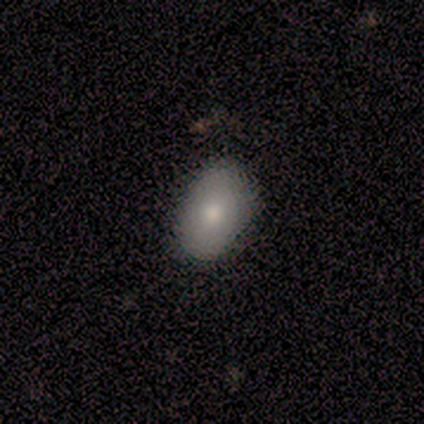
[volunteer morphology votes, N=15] type=smooth (93%); roundness=in between (93%); merging=none (86%).